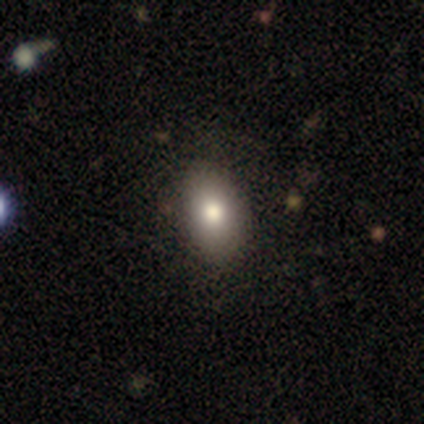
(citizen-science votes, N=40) Volunteers were most divided on "smooth or featured": smooth: 78%, featured or disk: 18%, star or artifact: 5%. More confident: how rounded — in between (84%); merging — none (66%).